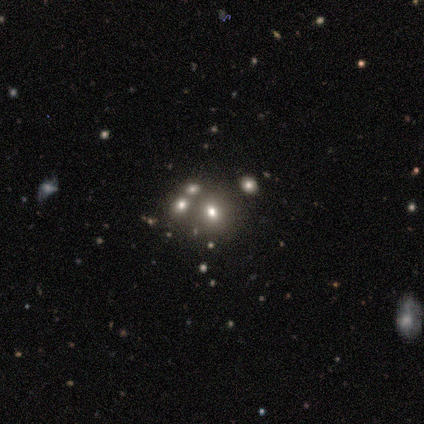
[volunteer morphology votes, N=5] Overall: featured or disk (40%, tied with star or artifact). Edge-on disk: no (100%). Bar: no (100%). Spiral arms: no (100%). Bulge size: moderate (50%, tied with none). Merging: none (67%; major disturbance 33%).